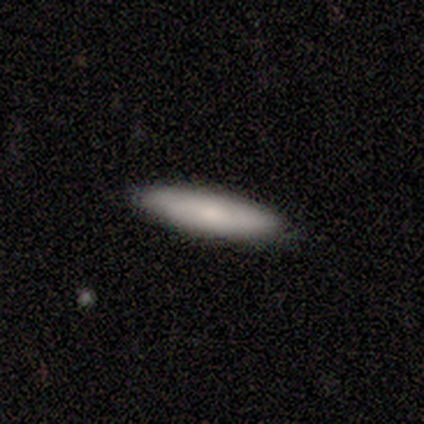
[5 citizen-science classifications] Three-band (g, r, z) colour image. It shows a smooth galaxy with no disk features (80%) that is cigar-shaped (75%). Merging: none (100%).